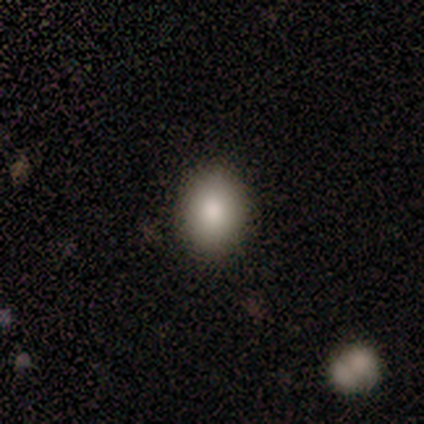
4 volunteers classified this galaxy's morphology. This appears to be a smooth galaxy with no disk features (100%) that is round (50%, tied with in between). Merging: none (100%).